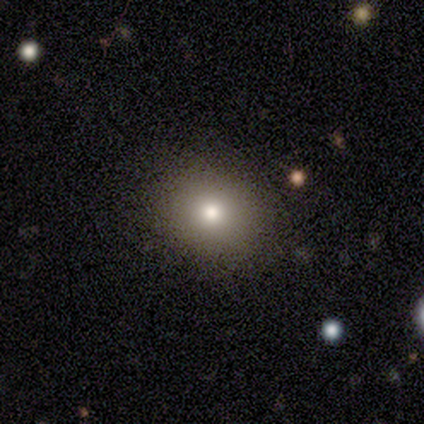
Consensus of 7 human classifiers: smooth-or-featured: smooth: 57% | star or artifact: 29% | featured or disk: 14%
  how-rounded: in between: 75% | round: 25% | cigar-shaped: 0%
  merging: none: 80% | minor disturbance: 20% | major disturbance: 0% | merger: 0%